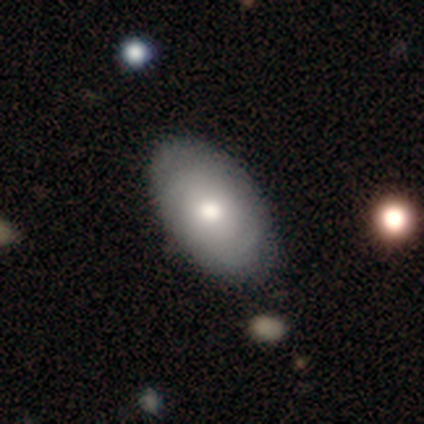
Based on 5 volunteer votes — smooth-or-featured: smooth: 60% | featured or disk: 40% | star or artifact: 0%
  how-rounded: in between: 100% | round: 0% | cigar-shaped: 0%
  merging: none: 100% | minor disturbance: 0% | major disturbance: 0% | merger: 0%